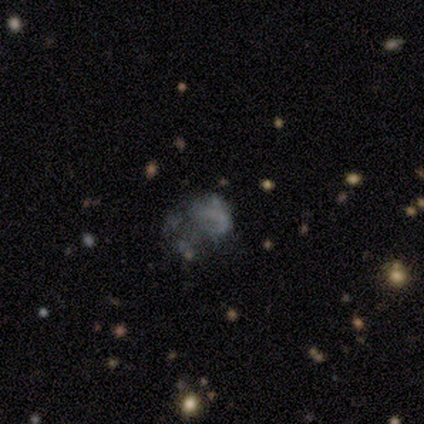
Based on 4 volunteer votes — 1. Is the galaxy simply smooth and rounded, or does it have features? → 50% smooth (tied), 50% featured or disk (tied), 0% star or artifact.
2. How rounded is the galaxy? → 100% in between, 0% round, 0% cigar-shaped.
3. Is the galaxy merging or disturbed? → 50% minor disturbance, 25% none, 25% major disturbance, 0% merger.